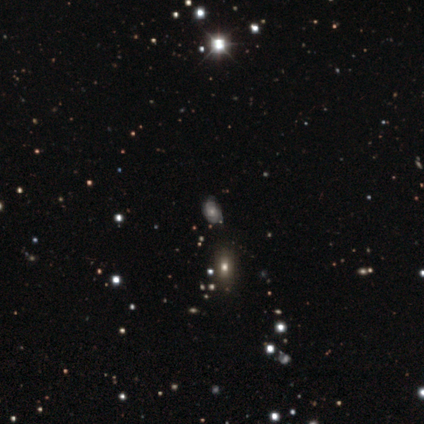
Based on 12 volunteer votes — Smooth or featured? 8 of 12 (67%) said featured or disk. Edge-on disk? 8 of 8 (100%) said no. Bar? 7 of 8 (88%) said no. Spiral arms? 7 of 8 (88%) said yes. Spiral winding? 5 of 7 (71%) said tight. Spiral arm count? 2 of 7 (29%, tied with 4 and can't tell) said 2. Bulge size? 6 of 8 (75%) said small. Merging? 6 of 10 (60%) said none.